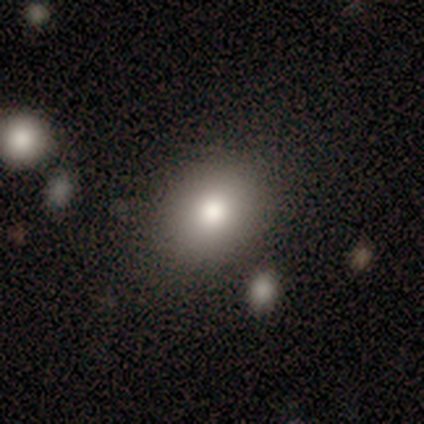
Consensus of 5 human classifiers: Overall: smooth (100%). How rounded: round (60%; in between 40%). Merging: none (100%).